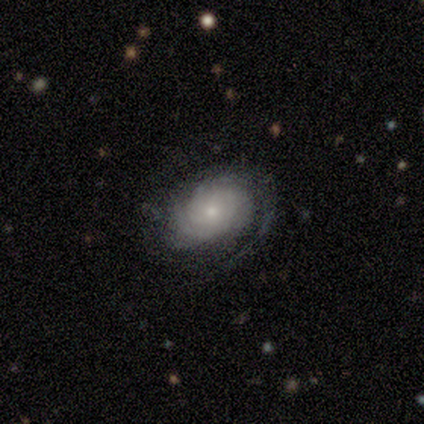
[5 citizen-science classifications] Q: Smooth or featured?
A: featured or disk (80%); runner-up: smooth (20%)
Q: Edge-on disk?
A: no (100%)
Q: Bar?
A: no (75%); runner-up: weak (25%)
Q: Spiral arms?
A: yes (100%)
Q: Spiral winding?
A: tight (75%); runner-up: loose (25%)
Q: Spiral arm count?
A: 2 (50%); runner-up: 4 (25%)
Q: Bulge size?
A: small (75%); runner-up: moderate (25%)
Q: Merging?
A: none (80%); runner-up: major disturbance (20%)